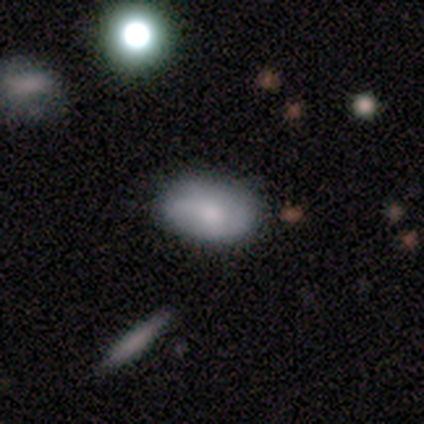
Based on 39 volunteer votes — Overall: smooth (67%; featured or disk 28%). How rounded: in between (88%). Merging: none (76%).